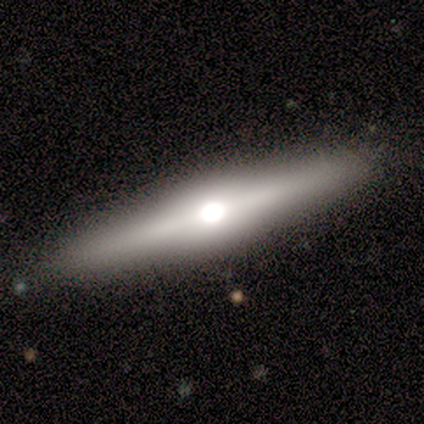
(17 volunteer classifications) Smooth or featured?
  - featured or disk: 71% *
  - smooth: 24%
  - star or artifact: 6%
Edge-on disk?
  - yes: 100% *
  - no: 0%
Edge-on bulge?
  - rounded: 100% *
  - boxy: 0%
  - none: 0%
Merging?
  - none: 81% *
  - minor disturbance: 19%
  - major disturbance: 0%
  - merger: 0%